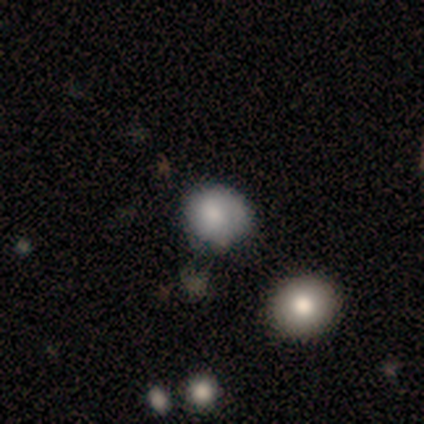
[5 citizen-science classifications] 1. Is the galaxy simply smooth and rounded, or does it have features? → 60% smooth, 20% featured or disk, 20% star or artifact.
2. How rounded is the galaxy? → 67% round, 33% in between, 0% cigar-shaped.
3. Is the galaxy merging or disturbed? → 50% none, 25% minor disturbance, 25% merger, 0% major disturbance.